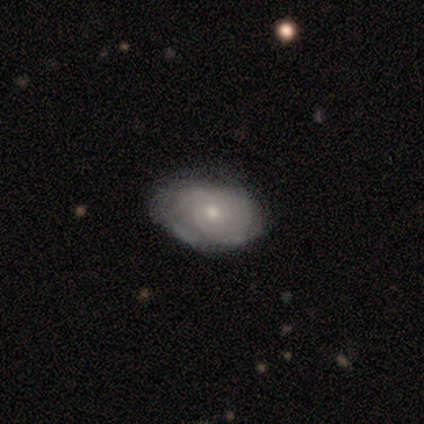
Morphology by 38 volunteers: smooth_or_featured: featured or disk (p=0.58) [alt: smooth p=0.26]
disk_edge_on: no (p=1.00)
bar: no (p=0.73) [alt: weak p=0.27]
has_spiral_arms: yes (p=0.86) [alt: no p=0.14]
spiral_winding: tight (p=0.74) [alt: medium p=0.21]
spiral_arm_count: can't tell (p=0.47) [alt: 3 p=0.32]
bulge_size: small (p=0.64) [alt: moderate p=0.36]
merging: none (p=0.84) [alt: minor disturbance p=0.12]